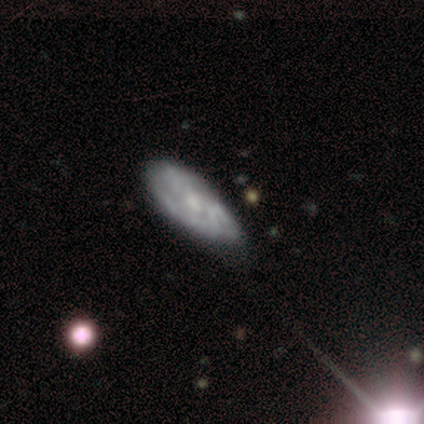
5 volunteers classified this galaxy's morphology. Overall: featured or disk (100%). Edge-on disk: no (100%). Bar: weak (60%; no 40%). Spiral arms: no (60%; yes 40%). Bulge size: moderate (60%; small 20%). Merging: none (40%, tied with minor disturbance).